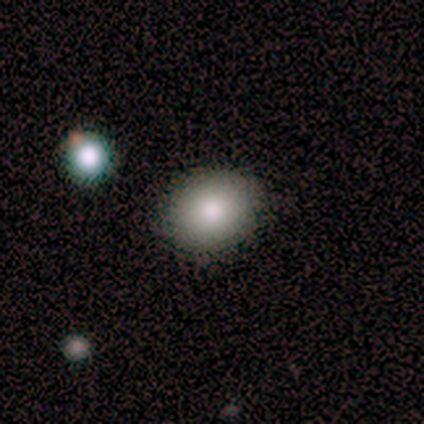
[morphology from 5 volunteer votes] Smooth or featured: smooth — 100%
How rounded: in between — 80% (round — 20%)
Merging: none — 100%